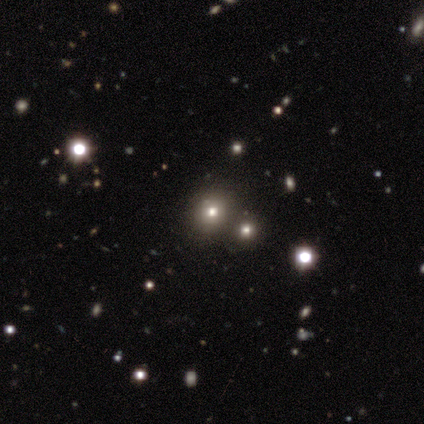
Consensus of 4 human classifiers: A featured or disk galaxy (50%, tied with star or artifact) with no bar (100%), no spiral arms (100%) and a large central bulge (50%, tied with moderate).

Vote fractions:
- Smooth or featured? featured or disk: 50% (tied) / star or artifact: 50% (tied) / smooth: 0%
- Edge-on disk? no: 100% / yes: 0%
- Bar? no: 100% / strong: 0% / weak: 0%
- Spiral arms? no: 100% / yes: 0%
- Bulge size? large: 50% (tied) / moderate: 50% (tied) / dominant: 0% / small: 0% / none: 0%
- Merging? none: 50% (tied) / merger: 50% (tied) / minor disturbance: 0% / major disturbance: 0%